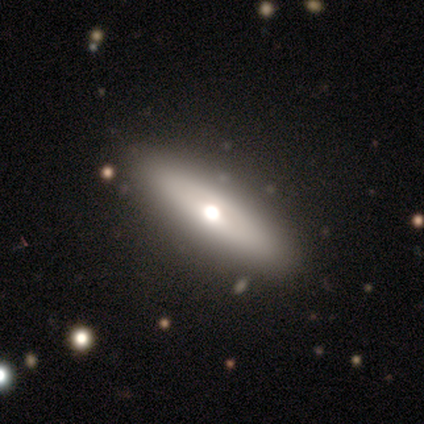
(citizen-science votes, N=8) smooth_or_featured: smooth (p=0.62) [alt: featured or disk p=0.38]
how_rounded: cigar-shaped (p=0.80) [alt: in between p=0.20]
merging: none (p=0.88) [alt: minor disturbance p=0.12]